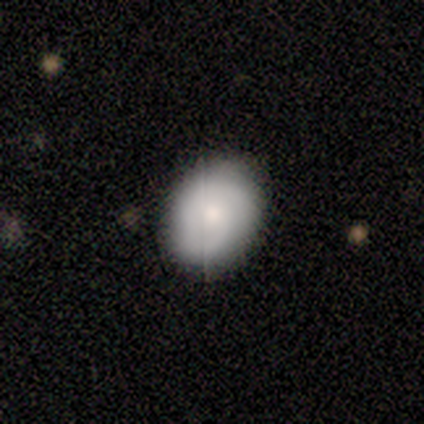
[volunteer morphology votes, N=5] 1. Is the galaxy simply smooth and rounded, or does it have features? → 80% smooth, 20% featured or disk, 0% star or artifact.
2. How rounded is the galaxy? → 50% round (tied), 50% in between (tied), 0% cigar-shaped.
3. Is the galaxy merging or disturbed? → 100% none, 0% minor disturbance, 0% major disturbance, 0% merger.